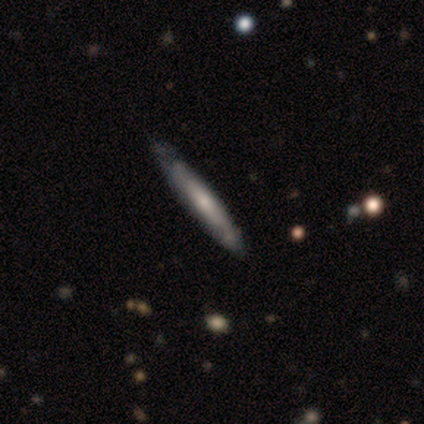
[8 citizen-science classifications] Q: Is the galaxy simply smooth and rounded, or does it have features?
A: smooth — 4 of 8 (50%, tied with featured or disk).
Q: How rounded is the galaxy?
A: cigar-shaped — 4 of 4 (100%).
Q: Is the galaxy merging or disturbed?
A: none — 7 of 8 (88%).